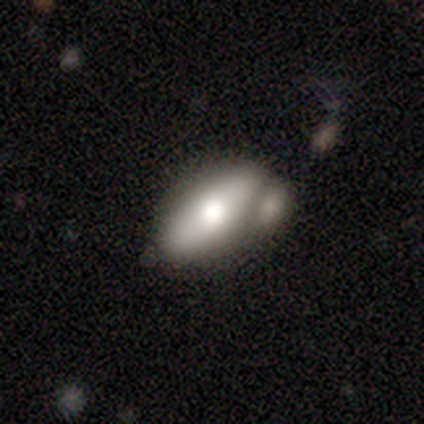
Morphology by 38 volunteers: A smooth galaxy with no disk features (47%, tied with featured or disk) that is in between round and cigar-shaped (78%).

Vote fractions:
- Smooth or featured? smooth: 47% (tied) / featured or disk: 47% (tied) / star or artifact: 5%
- How rounded? in between: 78% / cigar-shaped: 17% / round: 6%
- Merging? merger: 83% / none: 0% / minor disturbance: 0% / major disturbance: 0%